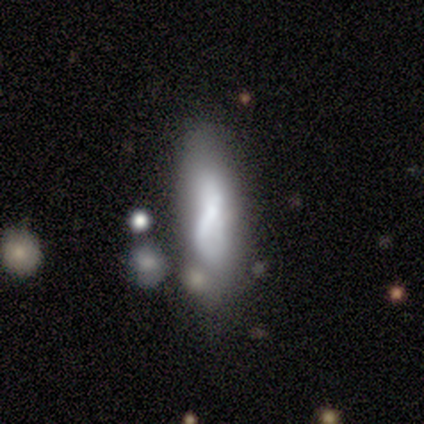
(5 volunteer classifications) Smooth or featured? 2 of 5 (40%, tied with featured or disk) said smooth. How rounded? 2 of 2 (100%) said in between. Merging? 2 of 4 (50%) said none.